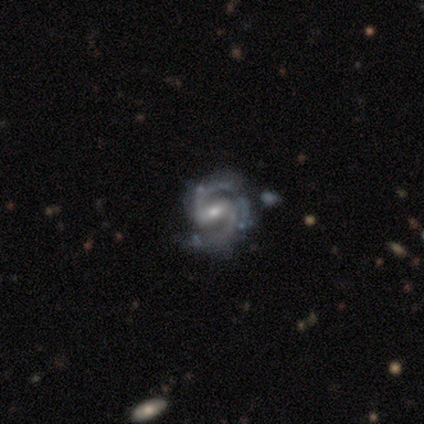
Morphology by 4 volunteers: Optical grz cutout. It shows a featured or disk galaxy (100%) with a weak bar (75%), 2 (75%) medium (75%) spiral arms (100%) and a moderate central bulge (50%, tied with small). Merging: none (75%).